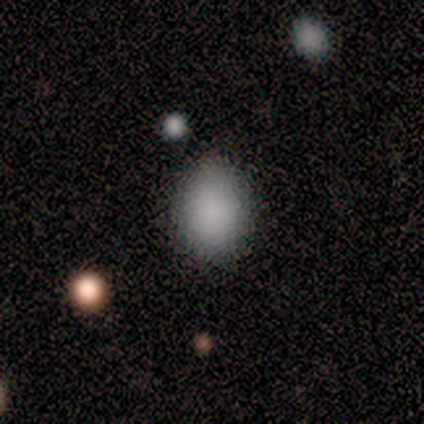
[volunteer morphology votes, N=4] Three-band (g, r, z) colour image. It shows a smooth galaxy with no disk features (100%) that is in between round and cigar-shaped (100%). Merging: none (100%).